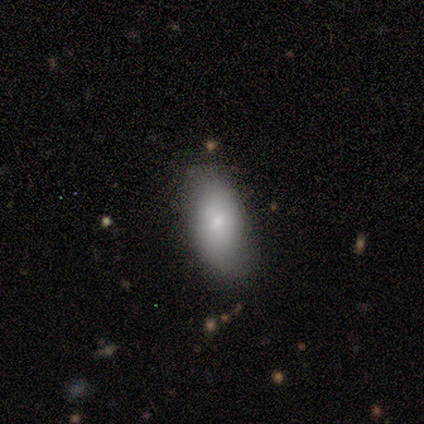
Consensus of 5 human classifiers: Morphology: type=smooth (100%); roundness=in between (100%); merging=none (100%).